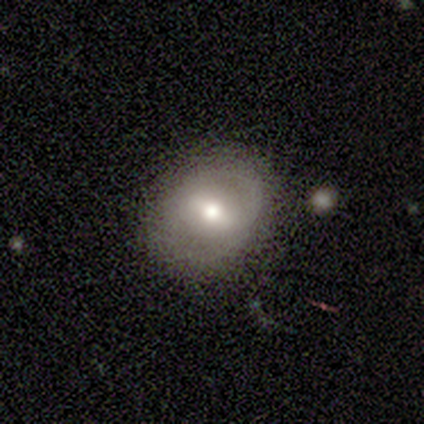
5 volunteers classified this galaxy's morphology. Volunteers were most divided on "how rounded": in between: 50%, round: 25%, cigar-shaped: 25%. More confident: smooth or featured — smooth (80%); merging — none (60%).